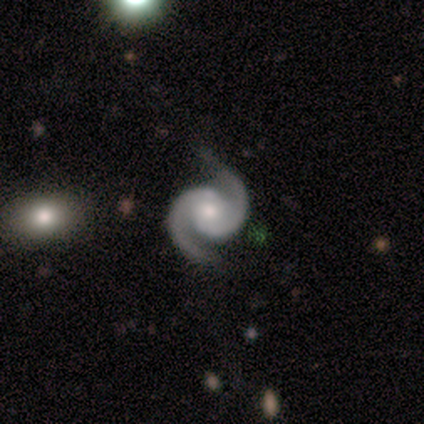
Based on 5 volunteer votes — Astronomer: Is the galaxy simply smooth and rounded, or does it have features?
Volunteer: featured or disk — 100%.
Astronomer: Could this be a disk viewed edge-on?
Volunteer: no — 100%.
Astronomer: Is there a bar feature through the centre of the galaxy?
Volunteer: no — 80%.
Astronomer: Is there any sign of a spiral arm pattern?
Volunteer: yes — 100%.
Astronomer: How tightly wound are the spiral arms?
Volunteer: medium — 80%.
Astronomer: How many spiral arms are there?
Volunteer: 2 — 100%.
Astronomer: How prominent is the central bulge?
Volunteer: small — 80%.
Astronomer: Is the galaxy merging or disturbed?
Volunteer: none — 80%.